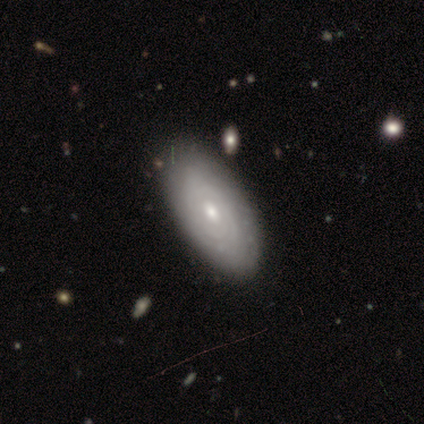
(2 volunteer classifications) Smooth or featured? 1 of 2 (50%, tied with featured or disk) said smooth. How rounded? 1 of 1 (100%) said in between. Merging? 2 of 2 (100%) said none.